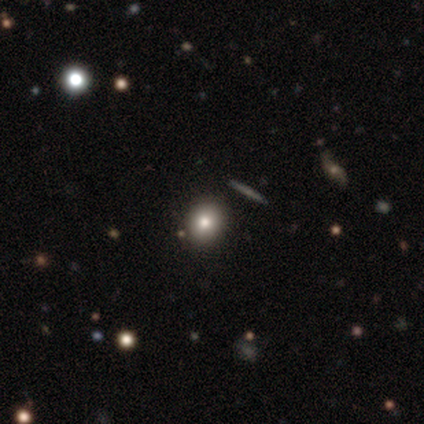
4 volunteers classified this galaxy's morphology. Q: Smooth or featured?
A: smooth (75%); runner-up: featured or disk (25%)
Q: How rounded?
A: round (67%); runner-up: in between (33%)
Q: Merging?
A: none (75%); runner-up: minor disturbance (25%)